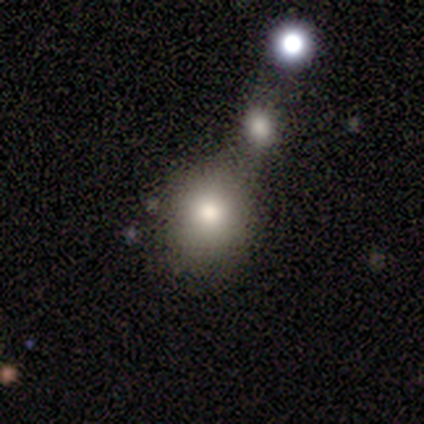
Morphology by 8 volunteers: Smooth or featured? smooth (62%)
How rounded? round (80%)
Merging? none (83%)